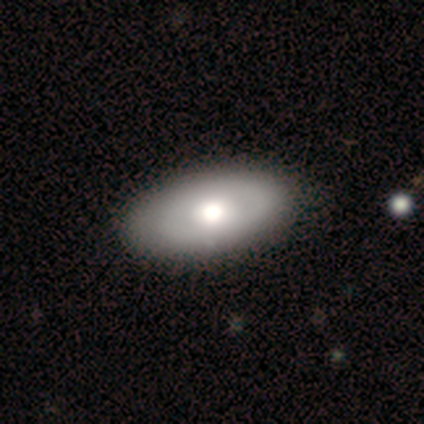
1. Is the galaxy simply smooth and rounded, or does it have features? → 80% featured or disk, 20% smooth, 0% star or artifact.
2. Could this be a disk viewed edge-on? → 100% no, 0% yes.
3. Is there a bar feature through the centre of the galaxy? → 75% no, 25% weak, 0% strong.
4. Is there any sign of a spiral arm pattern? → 100% no, 0% yes.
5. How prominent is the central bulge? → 50% large, 25% moderate, 25% small, 0% dominant, 0% none.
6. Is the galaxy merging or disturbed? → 60% none, 40% minor disturbance, 0% major disturbance, 0% merger.